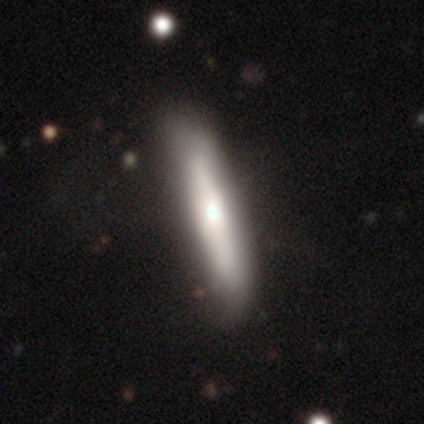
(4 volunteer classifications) This is likely a smooth galaxy (75%). How rounded: clearly cigar-shaped (100%). Merging: likely none (67%).